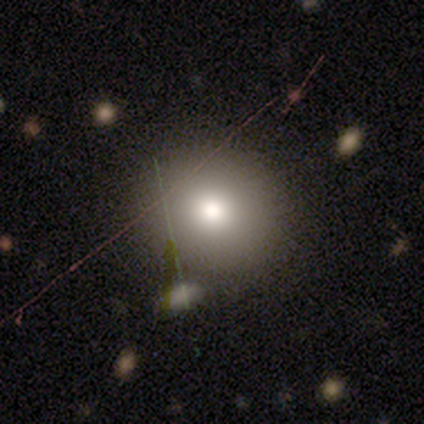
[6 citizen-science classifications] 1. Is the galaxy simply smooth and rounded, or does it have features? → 67% smooth, 33% star or artifact, 0% featured or disk.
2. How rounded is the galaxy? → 75% round, 25% in between, 0% cigar-shaped.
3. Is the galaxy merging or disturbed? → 100% none, 0% minor disturbance, 0% major disturbance, 0% merger.